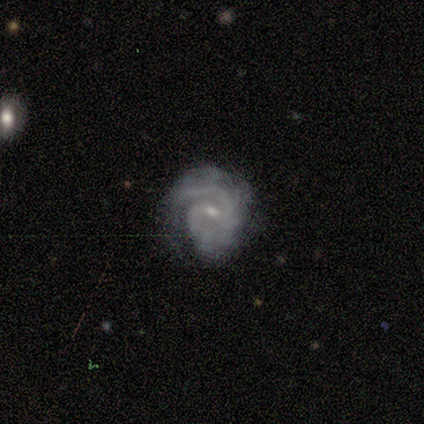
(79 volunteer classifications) This is clearly a featured or disk galaxy (89%). It is clearly not viewed edge-on (99%). Bar: likely weak (75%). Spiral arm pattern: clearly yes (100%). Spiral arm count: likely 2 (62%). Spiral winding: possibly tight (49%). Central bulge: likely small (71%). Merging: likely none (64%).